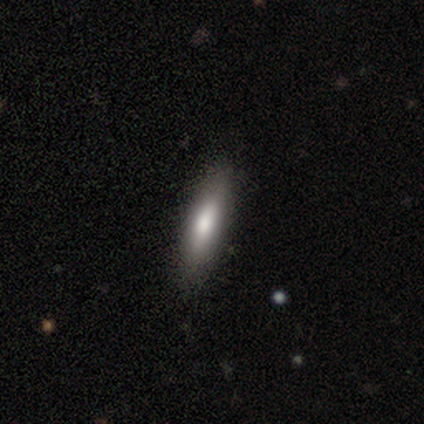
Smooth or featured?
  - smooth: 80% *
  - featured or disk: 20%
  - star or artifact: 0%
How rounded?
  - cigar-shaped: 75% *
  - in between: 25%
  - round: 0%
Merging?
  - none: 100% *
  - minor disturbance: 0%
  - major disturbance: 0%
  - merger: 0%